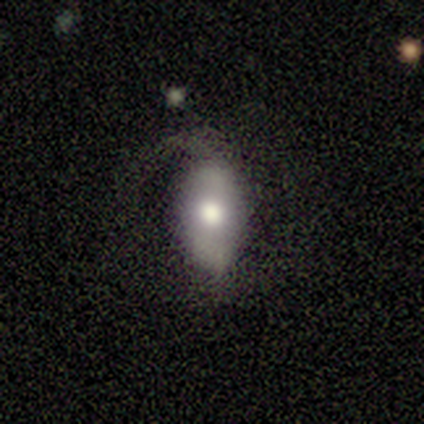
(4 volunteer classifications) Q: Smooth or featured?
A: smooth (75%); runner-up: star or artifact (25%)
Q: How rounded?
A: in between (100%)
Q: Merging?
A: none (33%); tied with: minor disturbance (33%); major disturbance (33%)